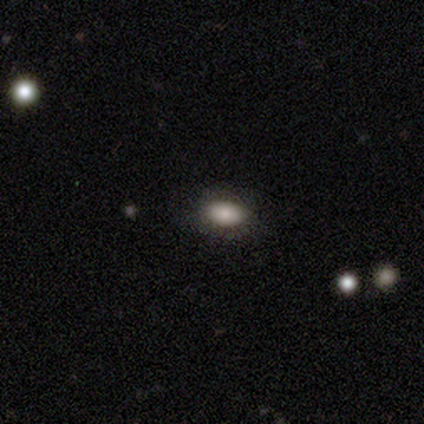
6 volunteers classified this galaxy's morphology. This is clearly a smooth galaxy (100%). How rounded: clearly in between (100%). Merging: clearly none (83%).